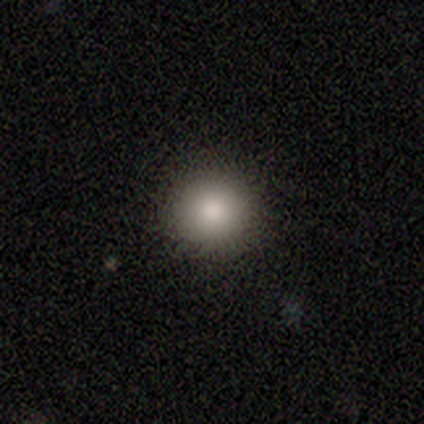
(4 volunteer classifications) Volunteers were most divided on "smooth or featured": smooth: 75%, star or artifact: 25%, featured or disk: 0%. More confident: how rounded — round (100%); merging — none (100%).